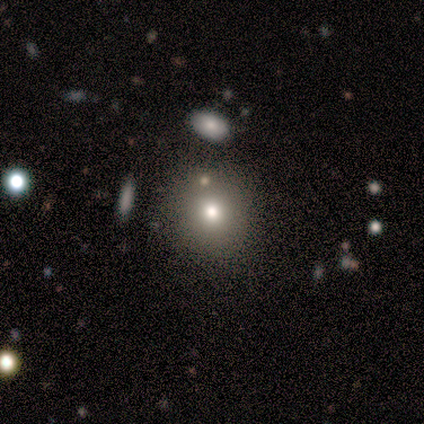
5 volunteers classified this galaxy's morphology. Smooth or featured? 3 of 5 (60%) said smooth. How rounded? 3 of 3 (100%) said round. Merging? 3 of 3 (100%) said none.